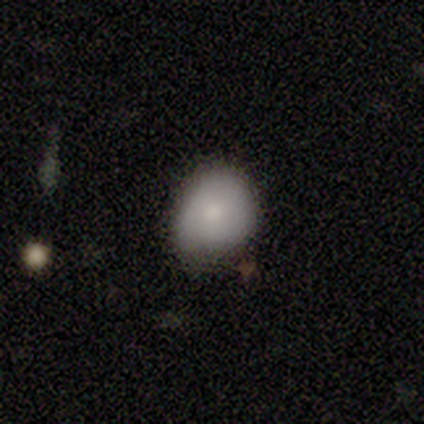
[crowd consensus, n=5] A smooth galaxy with no disk features (100%) that is round (80%).

Vote fractions:
- Smooth or featured? smooth: 100% / featured or disk: 0% / star or artifact: 0%
- How rounded? round: 80% / in between: 20% / cigar-shaped: 0%
- Merging? none: 80% / minor disturbance: 20% / major disturbance: 0% / merger: 0%